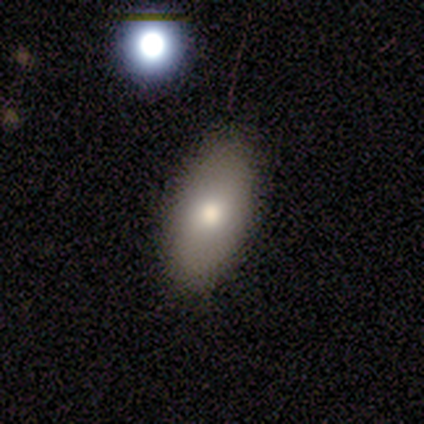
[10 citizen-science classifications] smooth_or_featured: smooth (p=0.70) [alt: star or artifact p=0.20]
how_rounded: in between (p=1.00)
merging: none (p=0.75) [alt: minor disturbance p=0.12]